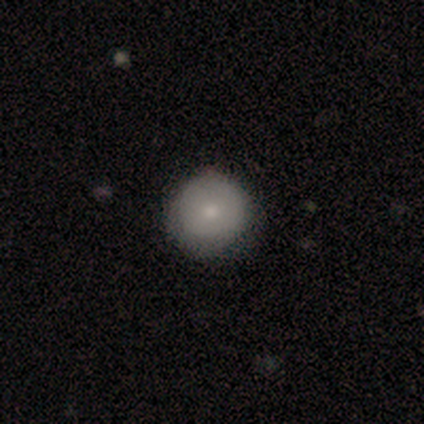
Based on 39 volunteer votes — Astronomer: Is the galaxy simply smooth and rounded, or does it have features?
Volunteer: smooth — 69%.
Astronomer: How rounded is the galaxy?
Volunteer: round — 96%.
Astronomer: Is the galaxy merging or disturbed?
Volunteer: none — 50%.